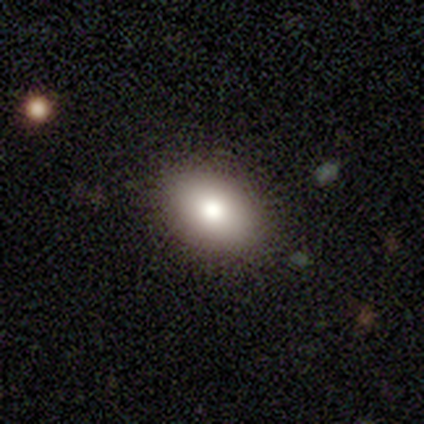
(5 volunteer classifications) Volunteers were most divided on "how rounded": in between: 75%, round: 25%, cigar-shaped: 0%. More confident: merging — none (100%); smooth or featured — smooth (80%).